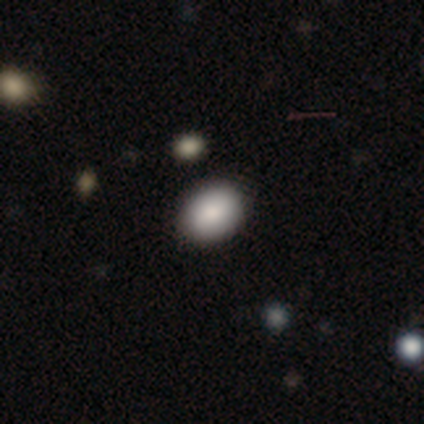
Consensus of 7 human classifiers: smooth_or_featured: smooth (p=0.71) [alt: star or artifact p=0.29]
how_rounded: in between (p=0.60) [alt: round p=0.40]
merging: none (p=1.00)